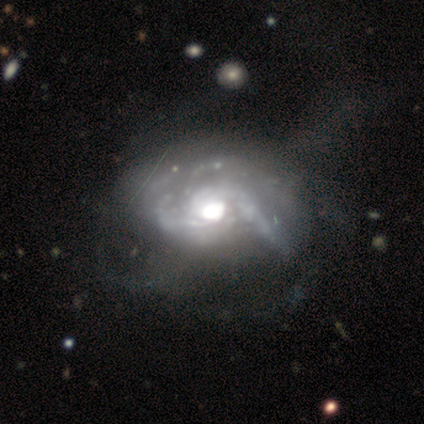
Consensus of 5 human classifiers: This appears to be a featured or disk galaxy (100%) with no bar (60%), medium (67%) spiral arms (60%) and a moderate central bulge (60%). Merging: major disturbance (60%).